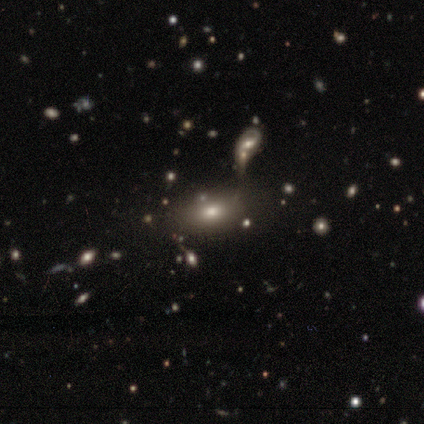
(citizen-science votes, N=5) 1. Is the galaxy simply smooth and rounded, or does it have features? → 100% smooth, 0% featured or disk, 0% star or artifact.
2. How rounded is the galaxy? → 80% in between, 20% round, 0% cigar-shaped.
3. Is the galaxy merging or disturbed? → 60% none, 40% merger, 0% minor disturbance, 0% major disturbance.